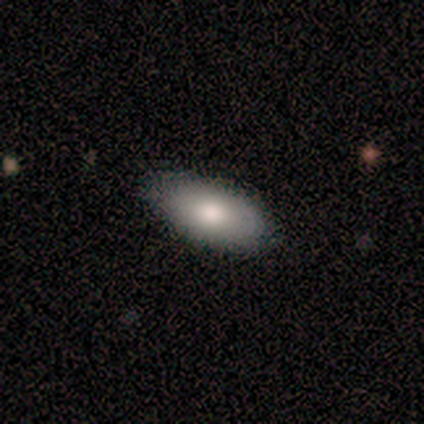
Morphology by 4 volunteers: type=smooth (100%); roundness=in between (75%); merging=none (75%).